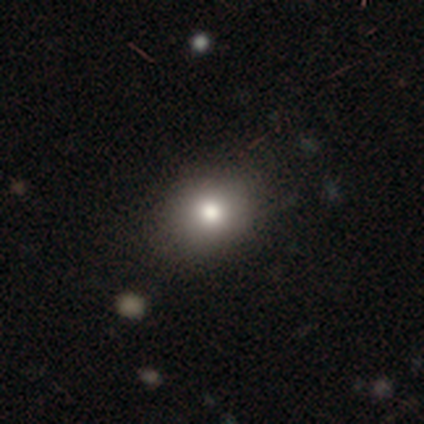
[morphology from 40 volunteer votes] Smooth or featured? smooth (82%)
How rounded? round (70%)
Merging? none (97%)